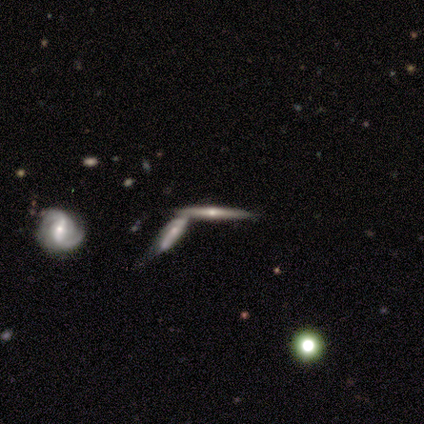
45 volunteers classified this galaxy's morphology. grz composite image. It shows a featured or disk galaxy (78%) viewed edge-on (86%) with a rounded central bulge (77%). Merging: merger (68%).